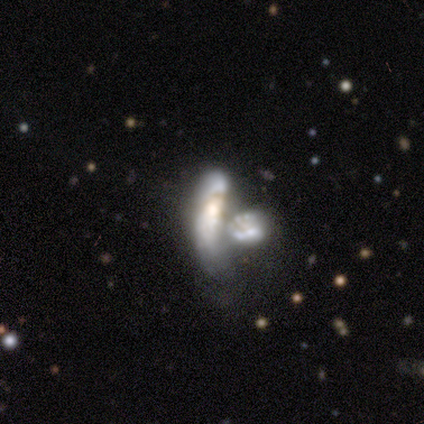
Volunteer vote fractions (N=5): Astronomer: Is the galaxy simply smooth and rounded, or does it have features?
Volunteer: smooth — 40%, tied with featured or disk at 40%.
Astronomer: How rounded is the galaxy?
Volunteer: in between — 50%, tied with cigar-shaped at 50%.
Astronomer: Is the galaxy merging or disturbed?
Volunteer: merger — 100%.